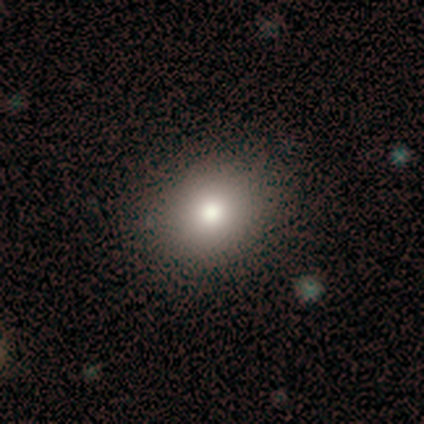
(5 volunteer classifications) This appears to be a smooth galaxy with no disk features (40%, tied with featured or disk) that is round (100%). Merging: none (75%).